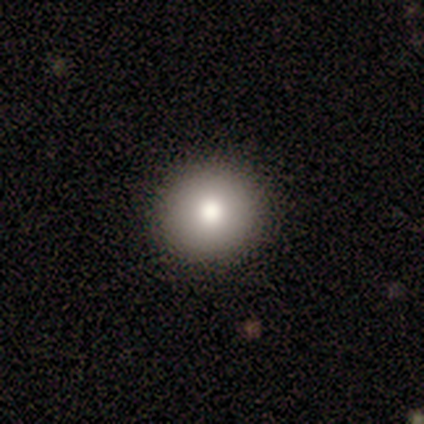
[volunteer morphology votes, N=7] Smooth or featured? 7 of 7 (100%) said smooth. How rounded? 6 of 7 (86%) said round. Merging? 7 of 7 (100%) said none.